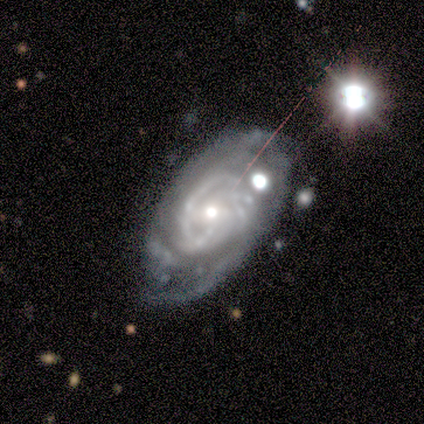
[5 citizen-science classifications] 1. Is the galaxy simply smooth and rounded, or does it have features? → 100% featured or disk, 0% smooth, 0% star or artifact.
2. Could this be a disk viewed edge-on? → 100% no, 0% yes.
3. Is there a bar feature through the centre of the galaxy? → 60% no, 40% weak, 0% strong.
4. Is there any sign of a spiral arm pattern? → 80% yes, 20% no.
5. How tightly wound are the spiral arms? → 75% tight, 25% medium, 0% loose.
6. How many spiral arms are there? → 75% can't tell, 25% 1, 0% 2, 0% 3, 0% 4, 0% more than 4.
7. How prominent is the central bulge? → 60% moderate, 40% small, 0% dominant, 0% large, 0% none.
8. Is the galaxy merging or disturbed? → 80% none, 20% major disturbance, 0% minor disturbance, 0% merger.